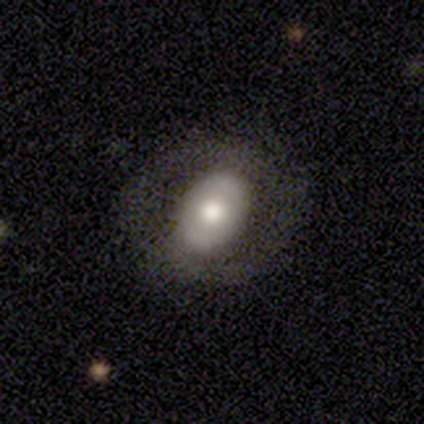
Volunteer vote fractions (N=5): Smooth or featured?
  - featured or disk: 60% *
  - smooth: 40%
  - star or artifact: 0%
Edge-on disk?
  - no: 100% *
  - yes: 0%
Bar?
  - no: 67% *
  - weak: 33%
  - strong: 0%
Spiral arms?
  - no: 100% *
  - yes: 0%
Bulge size?
  - moderate: 67% *
  - large: 33%
  - dominant: 0%
  - small: 0%
  - none: 0%
Merging?
  - minor disturbance: 60% *
  - none: 20%
  - major disturbance: 20%
  - merger: 0%